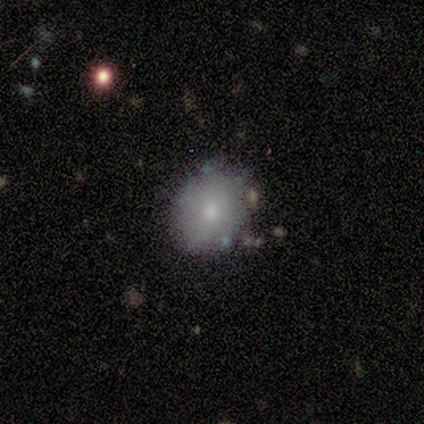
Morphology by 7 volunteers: Smooth or featured: smooth — 43% (tied with featured or disk — 43%)
How rounded: round — 67% (in between — 33%)
Merging: none — 83% (minor disturbance — 17%)